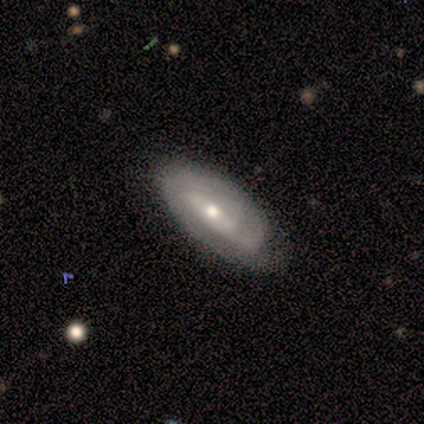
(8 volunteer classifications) smooth-or-featured: featured or disk: 50% | smooth: 25% | star or artifact: 25%
  disk-edge-on: no: 100% | yes: 0%
    bar: weak: 75% | no: 25% | strong: 0%
    has-spiral-arms: yes: 75% | no: 25%
      spiral-winding: tight: 33% (tied) | medium: 33% (tied) | loose: 33% (tied)
      spiral-arm-count: 1: 33% (tied) | 2: 33% (tied) | 3: 33% (tied) | 4: 0% | more than 4: 0% | can't tell: 0%
    bulge-size: moderate: 100% | dominant: 0% | large: 0% | small: 0% | none: 0%
  merging: none: 50% | minor disturbance: 33% | major disturbance: 17% | merger: 0%